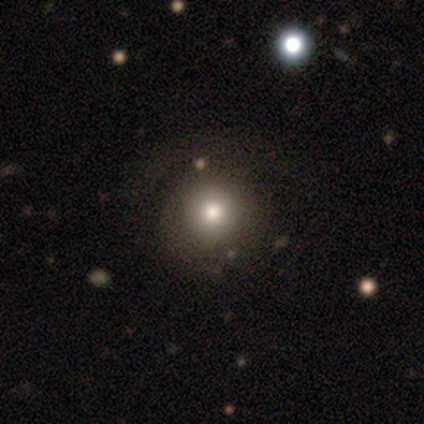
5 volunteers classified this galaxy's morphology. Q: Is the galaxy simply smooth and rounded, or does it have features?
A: smooth — 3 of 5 (60%).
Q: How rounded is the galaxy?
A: round — 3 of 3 (100%).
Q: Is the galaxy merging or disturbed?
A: none — 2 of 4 (50%).